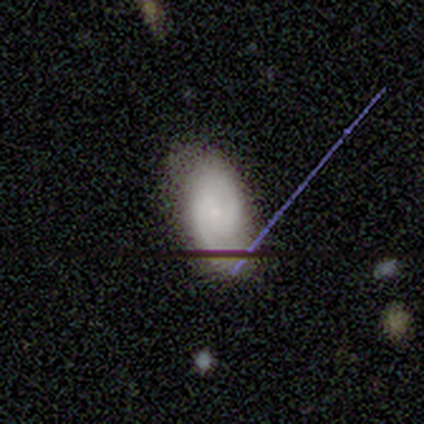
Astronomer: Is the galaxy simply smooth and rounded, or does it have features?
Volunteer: featured or disk — 45% (runner-up: smooth, 37%).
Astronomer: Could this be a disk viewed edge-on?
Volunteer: no — 100%.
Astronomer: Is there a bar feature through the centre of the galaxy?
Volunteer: no — 71%.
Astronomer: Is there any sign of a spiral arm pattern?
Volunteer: yes — 94%.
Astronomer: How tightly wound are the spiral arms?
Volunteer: tight — 44% (runner-up: medium, 31%).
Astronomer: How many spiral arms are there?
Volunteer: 2 — 81%.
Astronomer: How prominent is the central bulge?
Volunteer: small — 88%.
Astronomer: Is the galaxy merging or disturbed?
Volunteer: none — 74%.